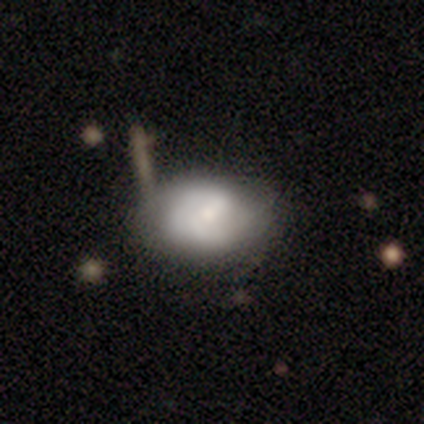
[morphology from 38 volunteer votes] smooth_or_featured: smooth (p=0.53) [alt: featured or disk p=0.39]
how_rounded: in between (p=0.55) [alt: round p=0.35]
merging: none (p=0.63) [alt: minor disturbance p=0.26]